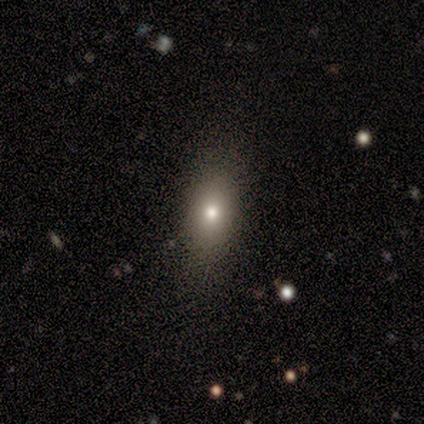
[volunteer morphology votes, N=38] smooth_or_featured: smooth (p=0.76) [alt: star or artifact p=0.16]
how_rounded: in between (p=0.83) [alt: cigar-shaped p=0.10]
merging: none (p=0.88) [alt: minor disturbance p=0.09]